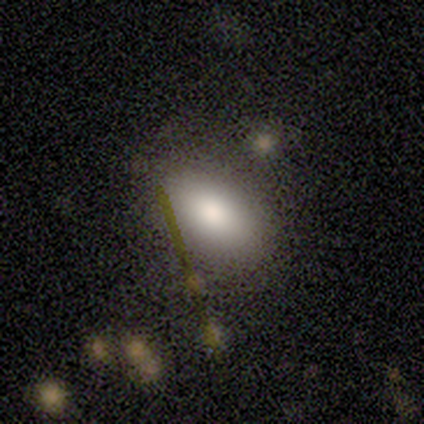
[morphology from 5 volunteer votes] Q: Smooth or featured?
A: smooth (80%); runner-up: featured or disk (20%)
Q: How rounded?
A: in between (100%)
Q: Merging?
A: none (40%); tied with: merger (40%)